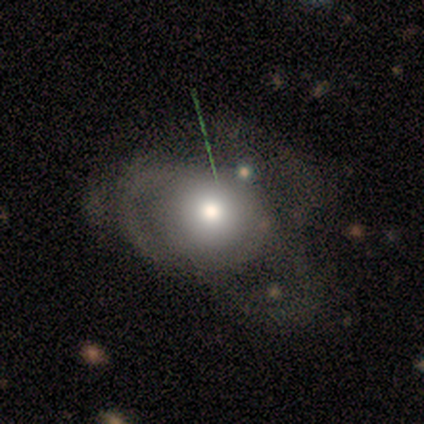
featured or disk 50%, smooth 38%, star or artifact 12%. Down the decision tree: edge-on disk — no (100%); bar — no (100%); spiral arms — yes (50%, tied with no); spiral arm count — 2 (50%, tied with can't tell); spiral winding — medium (100%); bulge size — large (50%, tied with moderate); merging — major disturbance (71%).